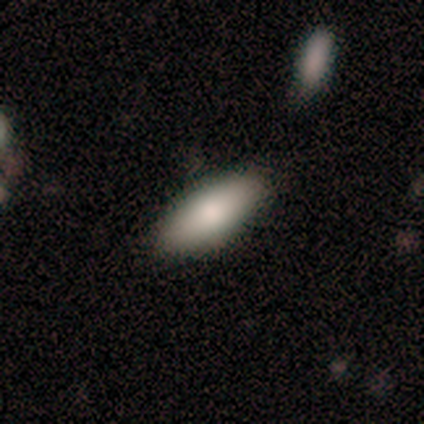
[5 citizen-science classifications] A smooth galaxy with no disk features (100%) that is in between round and cigar-shaped (100%). Merging: none (80%).